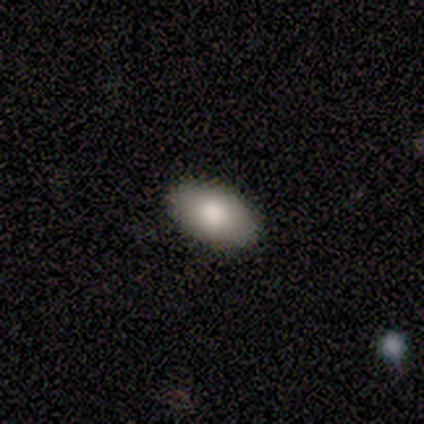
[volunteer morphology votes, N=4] Smooth or featured? 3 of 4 (75%) said smooth. How rounded? 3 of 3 (100%) said in between. Merging? 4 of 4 (100%) said none.